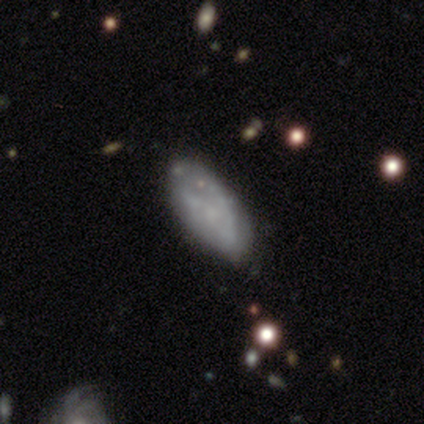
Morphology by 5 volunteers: featured or disk 60%, smooth 20%, star or artifact 20%. Down the decision tree: edge-on disk — no (67%); bar — no (100%); spiral arms — yes (50%, tied with no); spiral arm count — 2 (100%); spiral winding — medium (100%); bulge size — none (100%); merging — none (75%).